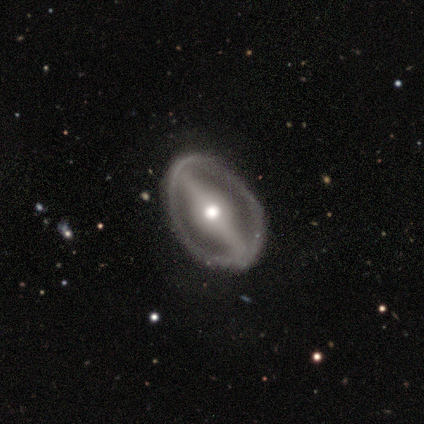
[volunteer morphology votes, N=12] This is clearly a featured or disk galaxy (100%). It is clearly not viewed edge-on (100%). Bar: likely strong (75%). Spiral arm pattern: likely no (67%). Central bulge: possibly moderate (58%). Merging: clearly none (100%).